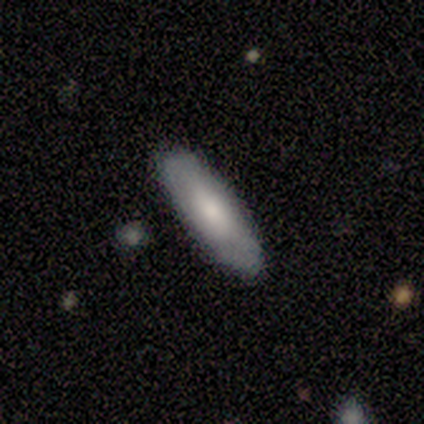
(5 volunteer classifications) Q: Smooth or featured?
A: smooth (60%); runner-up: featured or disk (40%)
Q: How rounded?
A: in between (67%); runner-up: cigar-shaped (33%)
Q: Merging?
A: none (60%); runner-up: minor disturbance (40%)